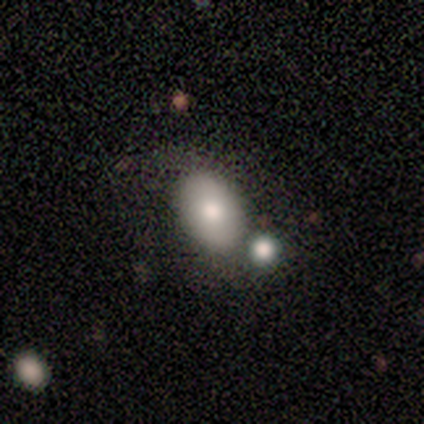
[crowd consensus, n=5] Smooth or featured? smooth (60%)
How rounded? in between (100%)
Merging? none (100%)